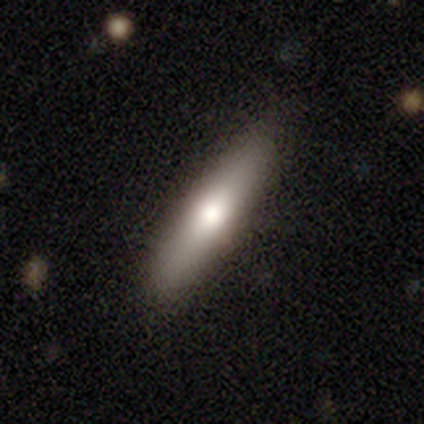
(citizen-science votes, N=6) Smooth or featured? smooth (50%, tied with featured or disk)
How rounded? cigar-shaped (100%)
Merging? none (83%)